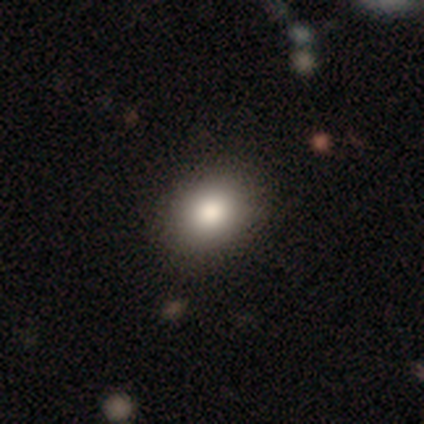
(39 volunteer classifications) Q: Smooth or featured?
A: smooth (74%); runner-up: featured or disk (18%)
Q: How rounded?
A: in between (66%); runner-up: round (34%)
Q: Merging?
A: none (89%); runner-up: minor disturbance (8%)